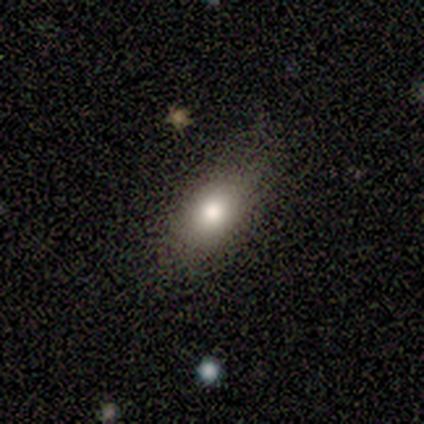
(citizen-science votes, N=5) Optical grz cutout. It shows a smooth galaxy with no disk features (80%) that is in between round and cigar-shaped (75%). Merging: minor disturbance (75%).